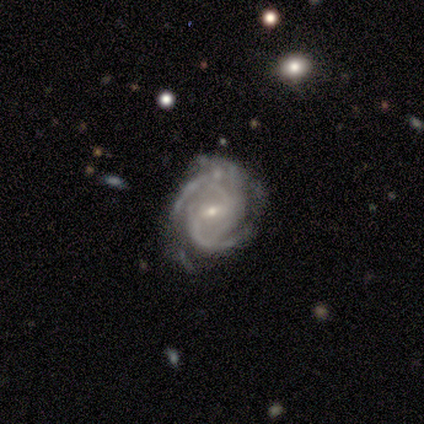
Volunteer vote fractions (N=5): A featured or disk galaxy (100%) with a weak bar (100%), 2 (20%, tied with 3, 4, more than 4 and can't tell) medium (60%) spiral arms (100%) and a small central bulge (60%).

Vote fractions:
- Smooth or featured? featured or disk: 100% / smooth: 0% / star or artifact: 0%
- Edge-on disk? no: 100% / yes: 0%
- Bar? weak: 100% / strong: 0% / no: 0%
- Spiral arms? yes: 100% / no: 0%
- Spiral winding? medium: 60% / tight: 40% / loose: 0%
- Spiral arm count? 2: 20% (tied) / 3: 20% (tied) / 4: 20% (tied) / more than 4: 20% (tied) / can't tell: 20% (tied) / 1: 0%
- Bulge size? small: 60% / moderate: 40% / dominant: 0% / large: 0% / none: 0%
- Merging? none: 60% / minor disturbance: 40% / major disturbance: 0% / merger: 0%